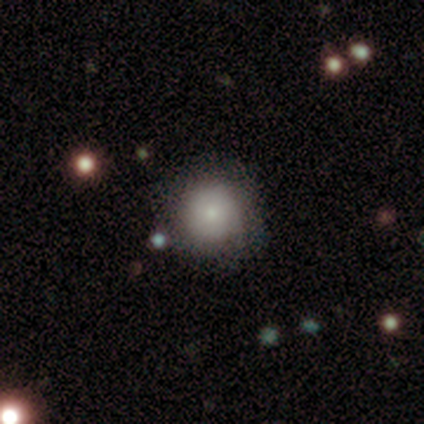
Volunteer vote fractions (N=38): This appears to be a smooth galaxy with no disk features (68%) that is round (100%). Merging: none (78%).